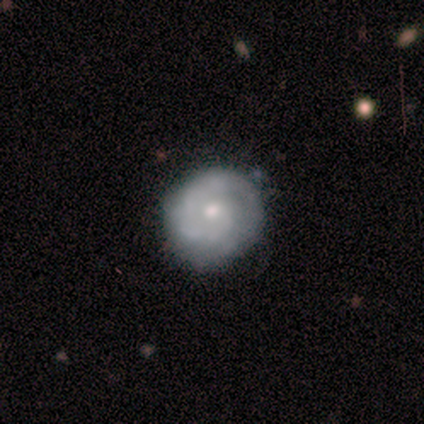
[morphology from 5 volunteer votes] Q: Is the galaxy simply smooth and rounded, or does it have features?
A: featured or disk — 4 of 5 (80%).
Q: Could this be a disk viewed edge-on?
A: no — 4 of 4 (100%).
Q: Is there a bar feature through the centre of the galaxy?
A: no — 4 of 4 (100%).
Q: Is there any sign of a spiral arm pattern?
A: yes — 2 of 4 (50%, tied with no).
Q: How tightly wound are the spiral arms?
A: tight — 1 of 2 (50%, tied with medium).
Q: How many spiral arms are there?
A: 1 — 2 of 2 (100%).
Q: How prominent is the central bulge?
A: moderate — 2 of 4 (50%, tied with small).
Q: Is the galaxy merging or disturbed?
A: none — 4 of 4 (100%).